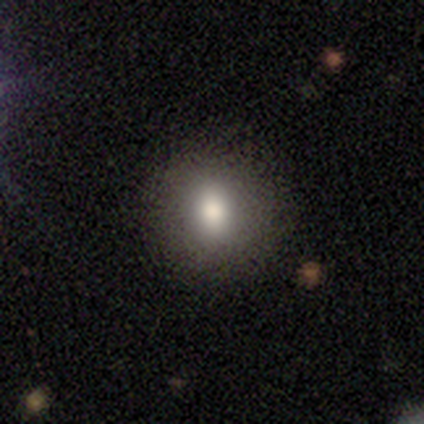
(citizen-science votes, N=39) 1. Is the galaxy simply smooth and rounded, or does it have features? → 87% smooth, 8% featured or disk, 5% star or artifact.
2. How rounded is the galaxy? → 71% round, 29% in between, 0% cigar-shaped.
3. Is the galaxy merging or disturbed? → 92% none, 5% minor disturbance, 3% merger, 0% major disturbance.